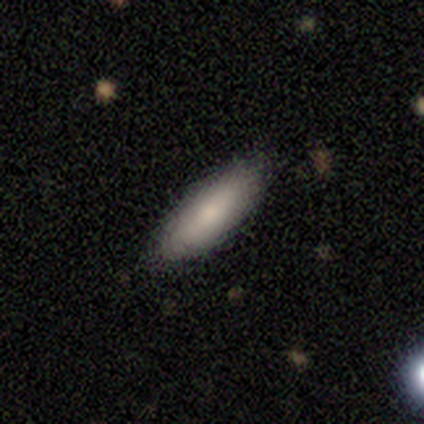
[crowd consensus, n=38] Smooth or featured? 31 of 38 (82%) said smooth. How rounded? 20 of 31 (65%) said cigar-shaped. Merging? 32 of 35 (91%) said none.